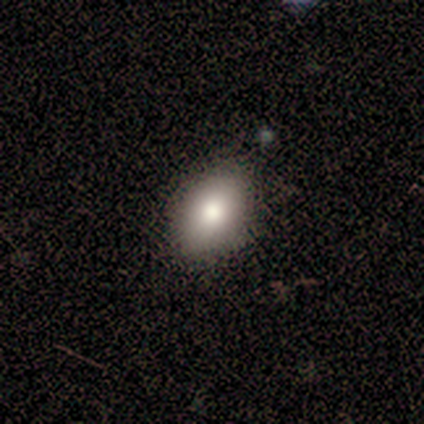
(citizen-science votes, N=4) Volunteers were most divided on "how rounded": round: 67%, in between: 33%, cigar-shaped: 0%. More confident: merging — none (100%); smooth or featured — smooth (75%).